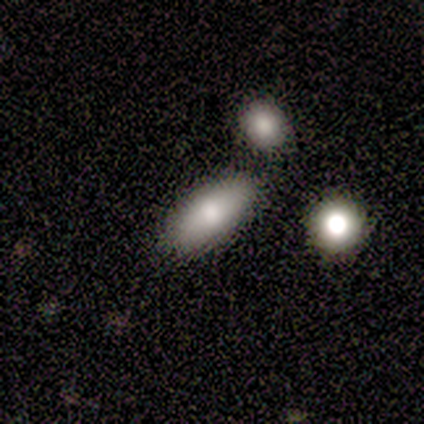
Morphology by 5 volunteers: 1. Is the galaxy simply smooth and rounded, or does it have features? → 80% smooth, 20% featured or disk, 0% star or artifact.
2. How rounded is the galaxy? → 100% in between, 0% round, 0% cigar-shaped.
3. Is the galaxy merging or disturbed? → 80% none, 20% minor disturbance, 0% major disturbance, 0% merger.